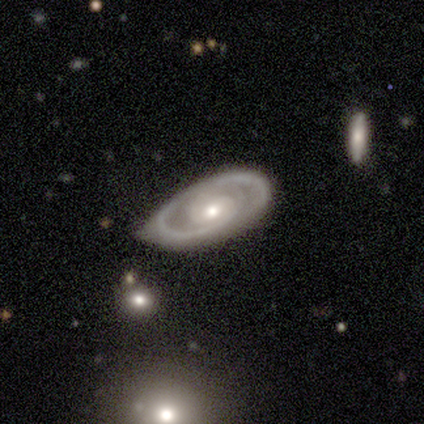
A featured or disk galaxy (100%) with no bar (60%), 2 (75%) tight (100%) spiral arms (80%) and a moderate central bulge (60%).

Vote fractions:
- Smooth or featured? featured or disk: 100% / smooth: 0% / star or artifact: 0%
- Edge-on disk? no: 100% / yes: 0%
- Bar? no: 60% / strong: 20% / weak: 20%
- Spiral arms? yes: 80% / no: 20%
- Spiral winding? tight: 100% / medium: 0% / loose: 0%
- Spiral arm count? 2: 75% / 1: 25% / 3: 0% / 4: 0% / more than 4: 0% / can't tell: 0%
- Bulge size? moderate: 60% / large: 20% / small: 20% / dominant: 0% / none: 0%
- Merging? none: 60% / minor disturbance: 40% / major disturbance: 0% / merger: 0%